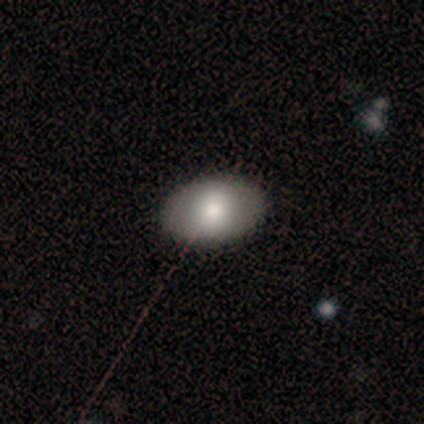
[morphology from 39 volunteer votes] A smooth galaxy with no disk features (69%) that is in between round and cigar-shaped (89%). Merging: none (78%).